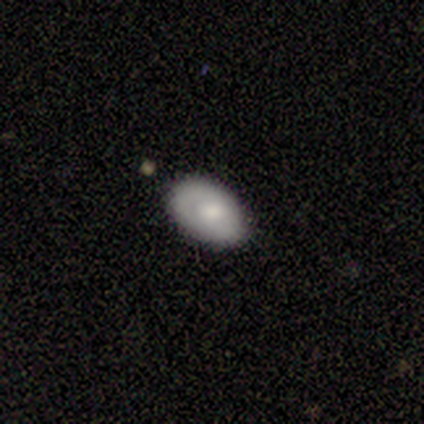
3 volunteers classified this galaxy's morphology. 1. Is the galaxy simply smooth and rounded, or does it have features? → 100% smooth, 0% featured or disk, 0% star or artifact.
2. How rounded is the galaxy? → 67% in between, 33% round, 0% cigar-shaped.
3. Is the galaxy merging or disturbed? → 67% none, 33% minor disturbance, 0% major disturbance, 0% merger.